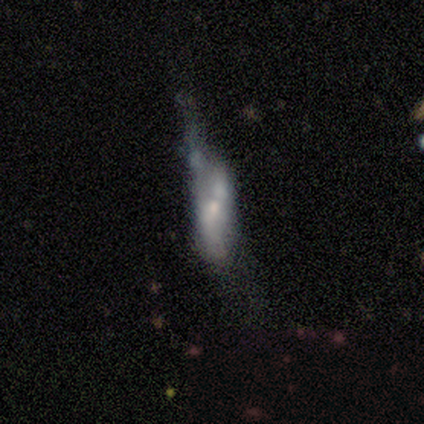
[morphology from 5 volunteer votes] smooth_or_featured: featured or disk (p=0.80) [alt: smooth p=0.20]
disk_edge_on: no (p=0.75) [alt: yes p=0.25]
bar: no (p=0.67) [alt: weak p=0.33]
has_spiral_arms: no (p=0.67) [alt: yes p=0.33]
bulge_size: moderate (p=0.67) [alt: small p=0.33]
merging: minor disturbance (p=0.40) [tied with: merger p=0.40]